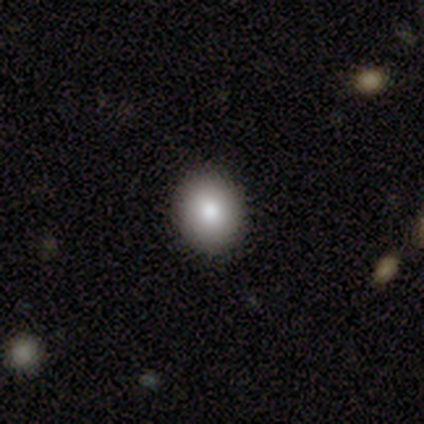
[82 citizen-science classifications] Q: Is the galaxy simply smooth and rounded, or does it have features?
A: smooth — 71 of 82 (87%).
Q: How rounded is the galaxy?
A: round — 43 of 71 (61%).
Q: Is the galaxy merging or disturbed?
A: none — 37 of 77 (48%).